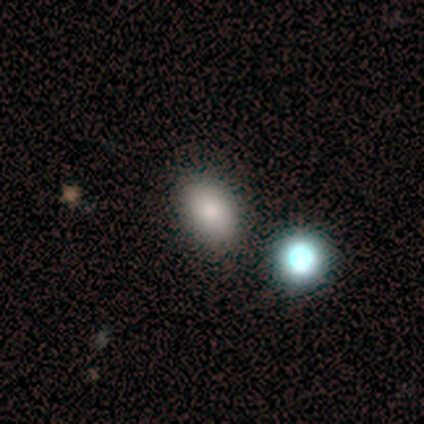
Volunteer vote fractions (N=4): smooth 75%, star or artifact 25%, featured or disk 0%. Down the decision tree: how rounded — in between (67%); merging — none (100%).